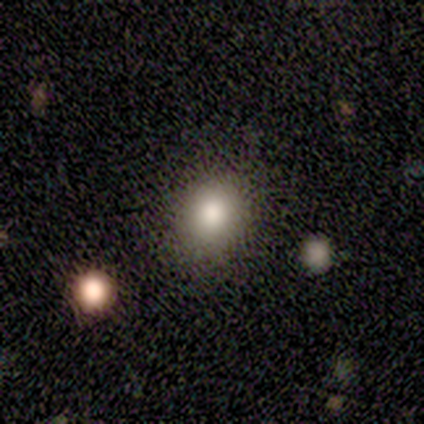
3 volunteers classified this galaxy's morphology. type=smooth (67%); roundness=round (100%); merging=none (100%).